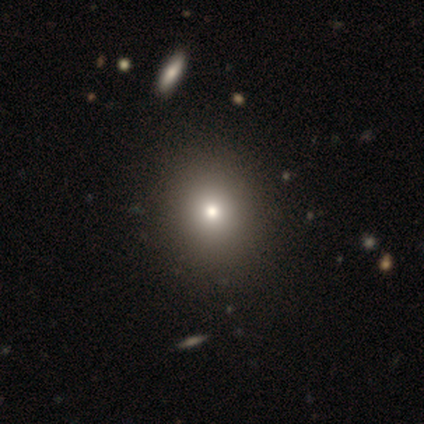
A smooth galaxy with no disk features (80%) that is round (75%). Merging: none (100%).